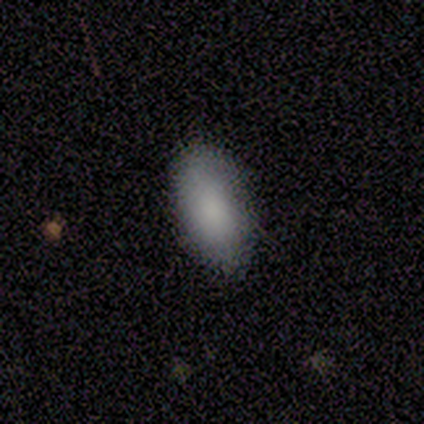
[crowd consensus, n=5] This is clearly a smooth galaxy (100%). How rounded: clearly in between (100%). Merging: likely none (60%).